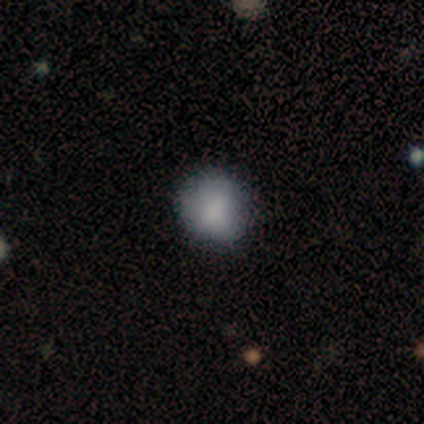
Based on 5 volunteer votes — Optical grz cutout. It shows a smooth galaxy with no disk features (80%) that is round (100%). Merging: none (100%).